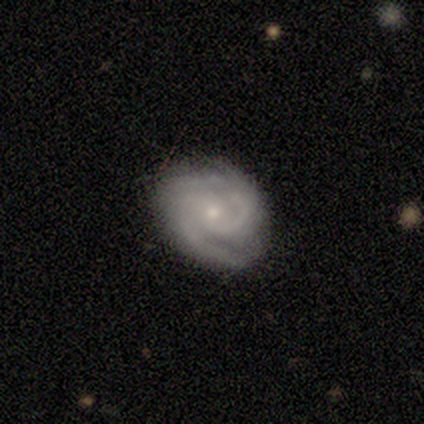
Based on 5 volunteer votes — This is clearly a featured or disk galaxy (80%). It is clearly not viewed edge-on (100%). Bar: possibly no (50%). Spiral arm pattern: clearly yes (100%). Spiral arm count: likely 2 (75%). Spiral winding: likely medium (75%). Central bulge: likely small (75%). Merging: clearly none (80%).